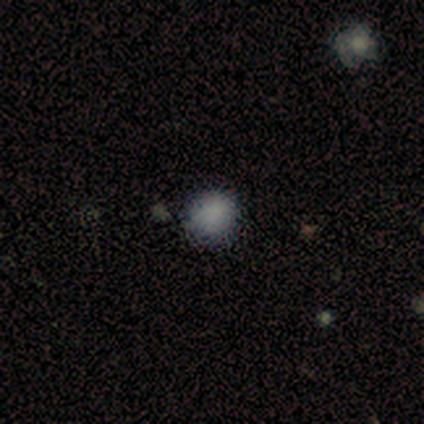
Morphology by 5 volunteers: Overall: smooth (100%). How rounded: round (80%). Merging: none (100%).